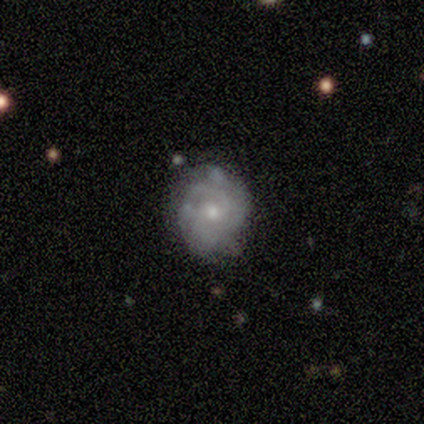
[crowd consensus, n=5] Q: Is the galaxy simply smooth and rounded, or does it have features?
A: featured or disk — 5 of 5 (100%).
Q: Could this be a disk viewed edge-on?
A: no — 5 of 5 (100%).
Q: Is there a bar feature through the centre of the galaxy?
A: no — 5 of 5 (100%).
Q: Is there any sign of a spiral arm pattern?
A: yes — 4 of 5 (80%).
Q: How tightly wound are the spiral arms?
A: tight — 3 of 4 (75%).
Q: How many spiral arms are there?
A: can't tell — 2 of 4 (50%).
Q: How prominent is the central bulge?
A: small — 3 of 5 (60%).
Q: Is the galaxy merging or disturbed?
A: none — 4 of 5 (80%).